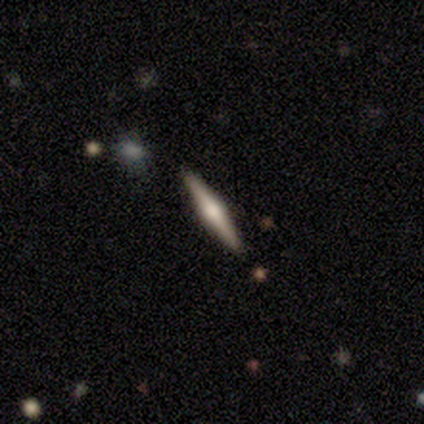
Overall: featured or disk (80%). Edge-on disk: yes (100%). Edge-on bulge: rounded (75%). Merging: none (100%).